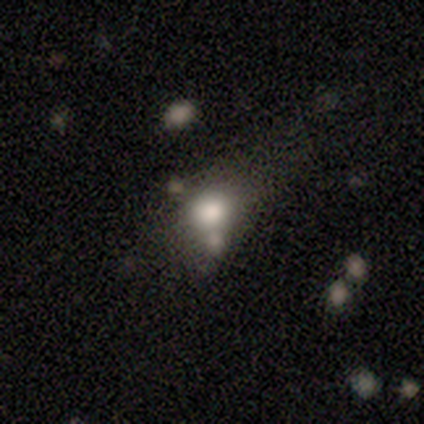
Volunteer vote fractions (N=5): A smooth galaxy with no disk features (100%) that is in between round and cigar-shaped (80%).

Vote fractions:
- Smooth or featured? smooth: 100% / featured or disk: 0% / star or artifact: 0%
- How rounded? in between: 80% / round: 20% / cigar-shaped: 0%
- Merging? none: 40% / minor disturbance: 20% / major disturbance: 20% / merger: 20%